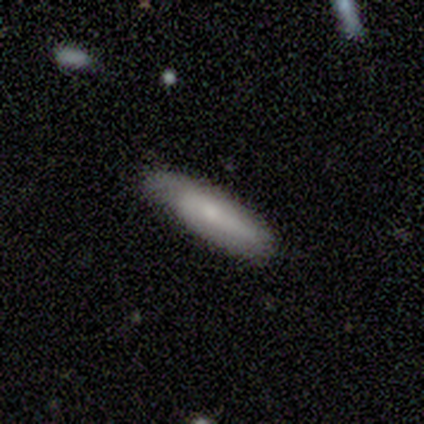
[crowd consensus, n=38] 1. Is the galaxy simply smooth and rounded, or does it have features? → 58% smooth, 29% featured or disk, 13% star or artifact.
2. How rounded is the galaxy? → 77% cigar-shaped, 23% in between, 0% round.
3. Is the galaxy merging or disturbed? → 73% none, 24% minor disturbance, 3% major disturbance, 0% merger.